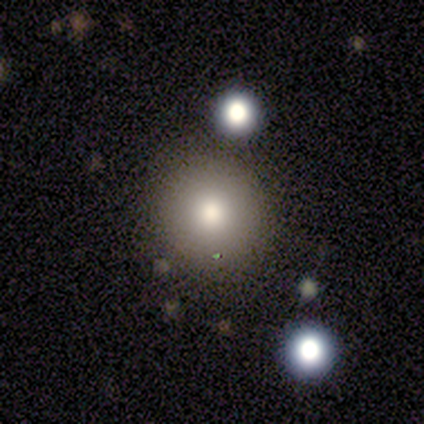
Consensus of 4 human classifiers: Smooth or featured: smooth — 75% (star or artifact — 25%)
How rounded: round — 100%
Merging: none — 67% (minor disturbance — 33%)